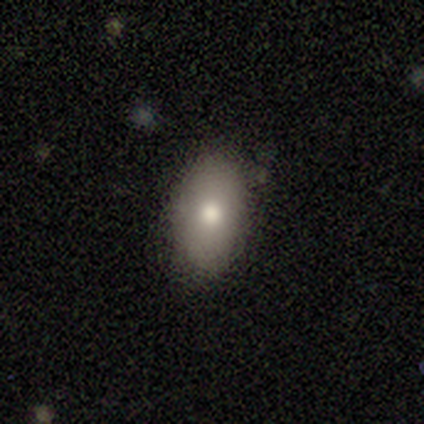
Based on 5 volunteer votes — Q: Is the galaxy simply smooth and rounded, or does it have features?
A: smooth — 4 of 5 (80%).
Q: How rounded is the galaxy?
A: in between — 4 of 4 (100%).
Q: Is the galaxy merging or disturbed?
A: none — 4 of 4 (100%).